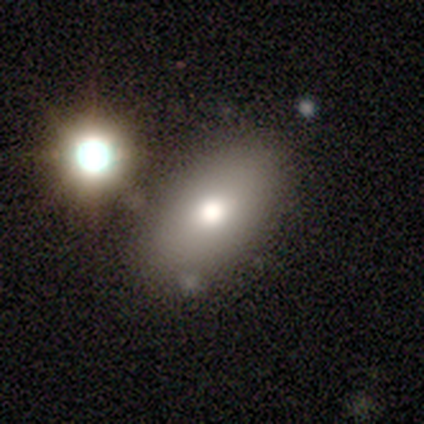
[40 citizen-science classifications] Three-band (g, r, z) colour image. It shows a smooth galaxy with no disk features (65%) that is in between round and cigar-shaped (100%). Merging: none (75%).